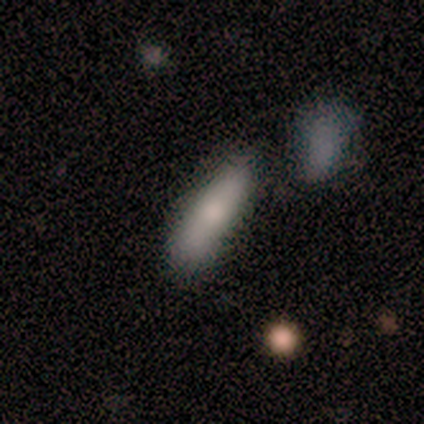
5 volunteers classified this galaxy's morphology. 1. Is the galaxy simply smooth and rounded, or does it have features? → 80% smooth, 20% featured or disk, 0% star or artifact.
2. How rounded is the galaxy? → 50% in between (tied), 50% cigar-shaped (tied), 0% round.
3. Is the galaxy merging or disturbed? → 100% none, 0% minor disturbance, 0% major disturbance, 0% merger.